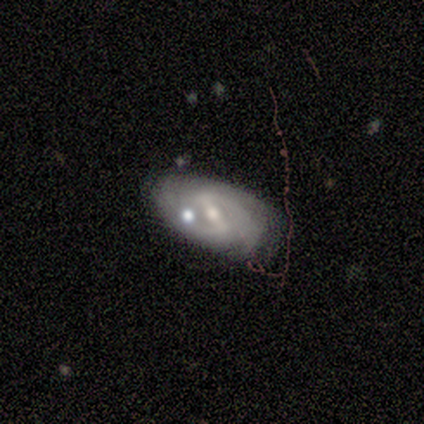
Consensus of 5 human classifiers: A featured or disk galaxy (100%) with a weak bar (75%), 2 (100%) tight (50%, tied with medium) spiral arms (50%, tied with no) and a small central bulge (75%).

Vote fractions:
- Smooth or featured? featured or disk: 100% / smooth: 0% / star or artifact: 0%
- Edge-on disk? no: 80% / yes: 20%
- Bar? weak: 75% / strong: 25% / no: 0%
- Spiral arms? yes: 50% (tied) / no: 50% (tied)
- Spiral winding? tight: 50% (tied) / medium: 50% (tied) / loose: 0%
- Spiral arm count? 2: 100% / 1: 0% / 3: 0% / 4: 0% / more than 4: 0% / can't tell: 0%
- Bulge size? small: 75% / moderate: 25% / dominant: 0% / large: 0% / none: 0%
- Merging? minor disturbance: 60% / none: 40% / major disturbance: 0% / merger: 0%